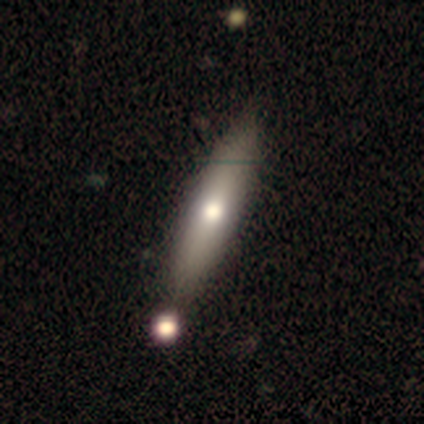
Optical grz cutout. It shows a smooth galaxy with no disk features (71%) that is cigar-shaped (80%). Merging: none (71%).